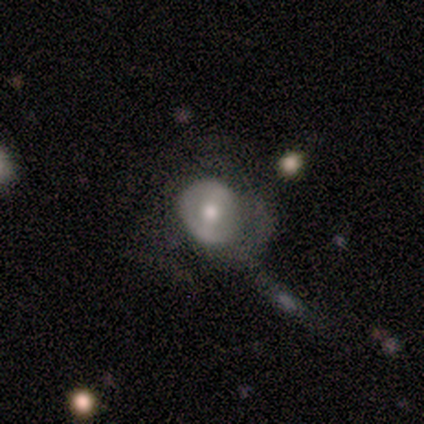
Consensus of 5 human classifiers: Smooth or featured?
  - featured or disk: 60% *
  - smooth: 40%
  - star or artifact: 0%
Edge-on disk?
  - no: 100% *
  - yes: 0%
Bar?
  - weak: 67% *
  - no: 33%
  - strong: 0%
Spiral arms?
  - no: 67% *
  - yes: 33%
Bulge size?
  - moderate: 100% *
  - dominant: 0%
  - large: 0%
  - small: 0%
  - none: 0%
Merging?
  - major disturbance: 60% *
  - none: 40%
  - minor disturbance: 0%
  - merger: 0%